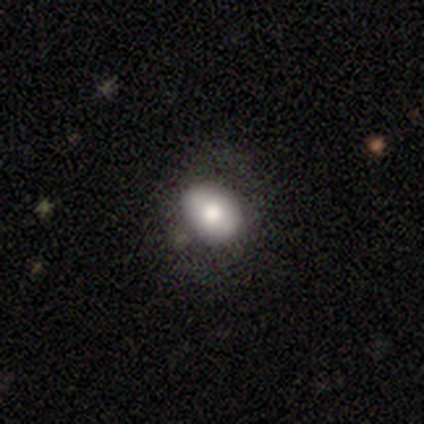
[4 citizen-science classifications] Smooth or featured? smooth (50%)
How rounded? in between (100%)
Merging? none (67%)